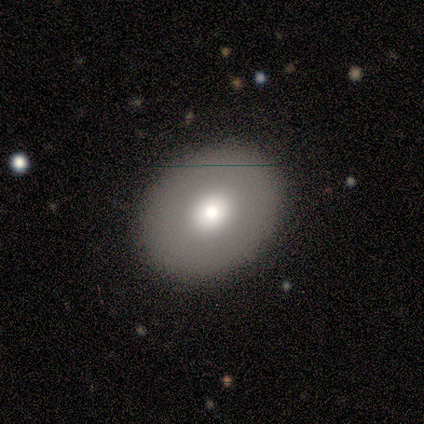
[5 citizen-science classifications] smooth-or-featured: smooth: 80% | featured or disk: 20% | star or artifact: 0%
  how-rounded: round: 50% (tied) | in between: 50% (tied) | cigar-shaped: 0%
  merging: none: 100% | minor disturbance: 0% | major disturbance: 0% | merger: 0%